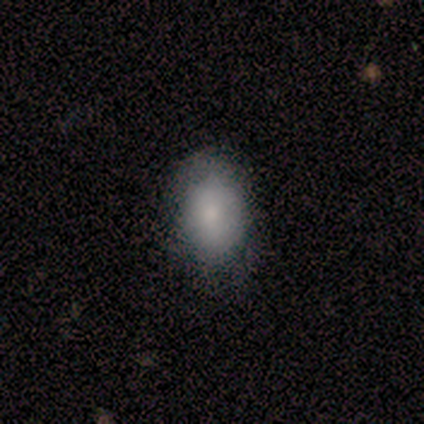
Smooth or featured: smooth — 100%
How rounded: in between — 80% (round — 20%)
Merging: none — 80% (minor disturbance — 20%)